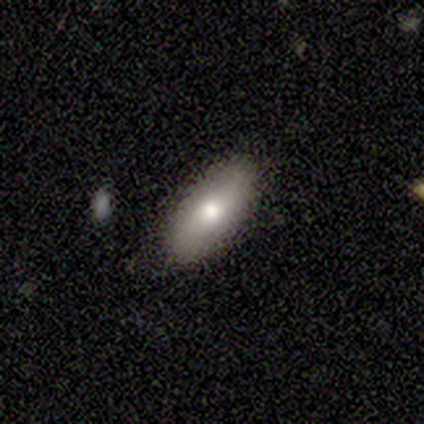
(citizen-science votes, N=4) Q: Smooth or featured?
A: smooth (75%); runner-up: featured or disk (25%)
Q: How rounded?
A: in between (67%); runner-up: cigar-shaped (33%)
Q: Merging?
A: none (100%)